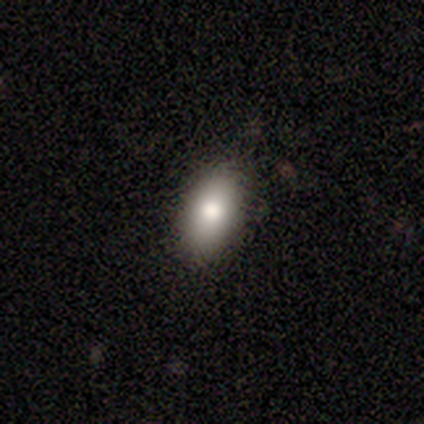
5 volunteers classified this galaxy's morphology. A smooth galaxy with no disk features (80%) that is in between round and cigar-shaped (100%).

Vote fractions:
- Smooth or featured? smooth: 80% / featured or disk: 20% / star or artifact: 0%
- How rounded? in between: 100% / round: 0% / cigar-shaped: 0%
- Merging? none: 60% / minor disturbance: 20% / major disturbance: 20% / merger: 0%